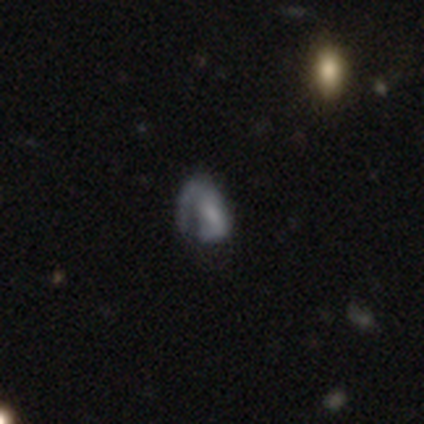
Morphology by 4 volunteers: type=featured or disk (100%); edge-on=no (100%); bar=weak (75%); spiral arms=yes (50%, tied with no); winding=medium (100%); arm count=1 (100%); bulge=none (50%); merging=none (50%, tied with minor disturbance).